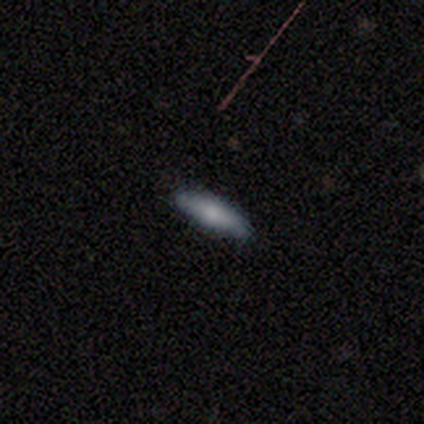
smooth 80%, featured or disk 20%, star or artifact 0%. Down the decision tree: how rounded — in between (75%); merging — none (100%).